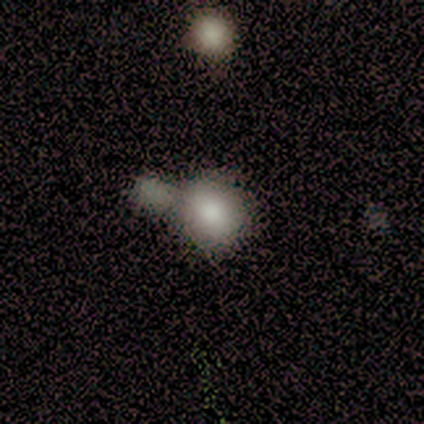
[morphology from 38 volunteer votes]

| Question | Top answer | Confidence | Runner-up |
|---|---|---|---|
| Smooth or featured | smooth | 87% | featured or disk (8%) |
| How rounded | round | 88% | in between (12%) |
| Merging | merger | 58% | none (25%) |